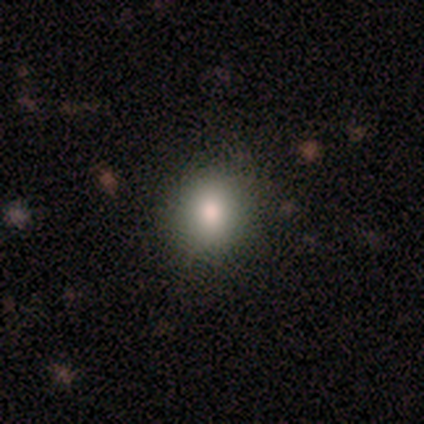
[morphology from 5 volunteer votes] smooth-or-featured: smooth: 80% | featured or disk: 20% | star or artifact: 0%
  how-rounded: round: 100% | in between: 0% | cigar-shaped: 0%
  merging: none: 80% | merger: 20% | minor disturbance: 0% | major disturbance: 0%